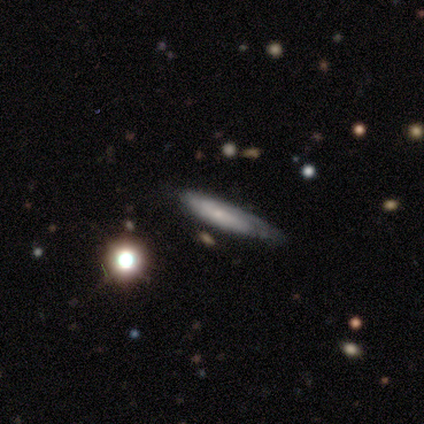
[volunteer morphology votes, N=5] Q: Smooth or featured?
A: smooth (60%); runner-up: featured or disk (40%)
Q: How rounded?
A: cigar-shaped (100%)
Q: Merging?
A: none (60%); runner-up: minor disturbance (40%)